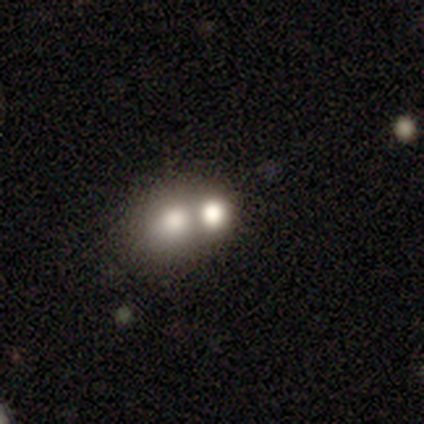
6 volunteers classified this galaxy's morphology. Smooth or featured: smooth — 67% (featured or disk — 17%)
How rounded: in between — 75% (round — 25%)
Merging: merger — 60% (minor disturbance — 40%)